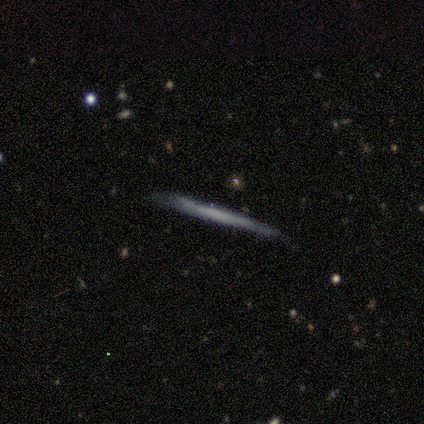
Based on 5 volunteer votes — Smooth or featured? 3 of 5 (60%) said featured or disk. Edge-on disk? 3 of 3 (100%) said yes. Edge-on bulge? 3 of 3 (100%) said none. Merging? 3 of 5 (60%) said none.